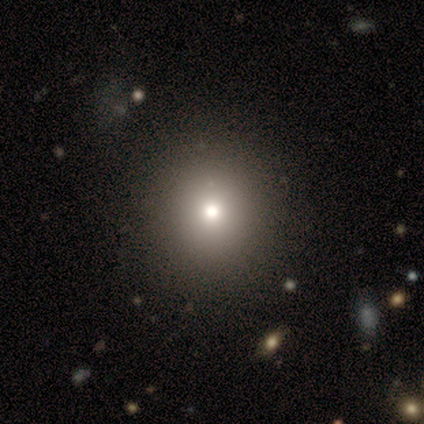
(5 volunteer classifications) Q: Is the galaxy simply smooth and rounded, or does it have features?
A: smooth — 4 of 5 (80%).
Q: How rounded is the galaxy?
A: round — 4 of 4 (100%).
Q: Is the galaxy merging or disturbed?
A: none — 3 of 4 (75%).